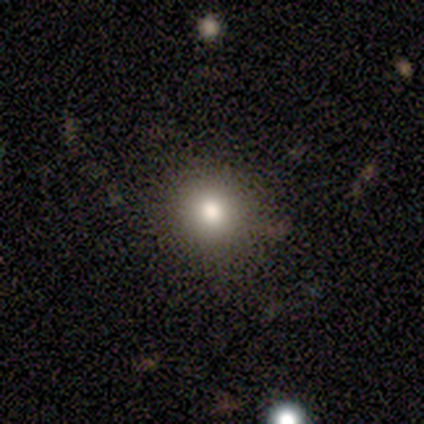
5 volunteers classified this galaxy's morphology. Smooth or featured? 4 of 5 (80%) said smooth. How rounded? 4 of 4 (100%) said round. Merging? 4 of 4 (100%) said none.